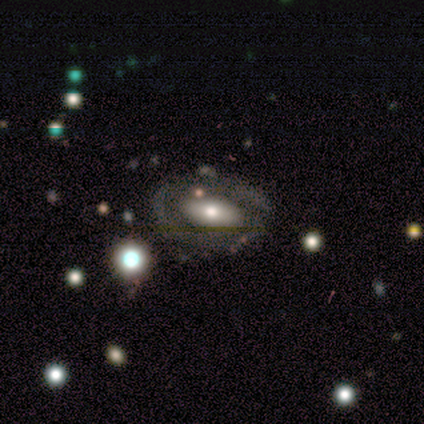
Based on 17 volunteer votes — Volunteers were most divided on "smooth or featured": featured or disk: 53%, smooth: 41%, star or artifact: 6%. More confident: edge-on disk — no (100%); spiral arms — no (89%); bar — no (67%); bulge size — moderate (67%); merging — none (56%).